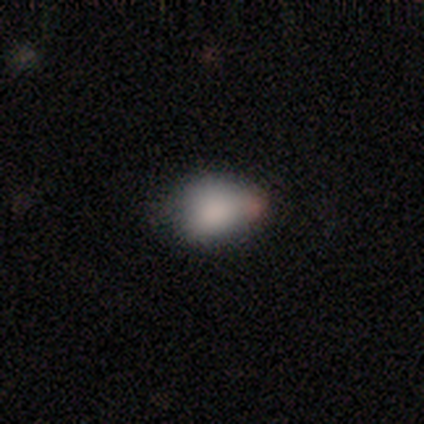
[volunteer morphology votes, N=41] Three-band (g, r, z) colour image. It shows a smooth galaxy with no disk features (73%) that is in between round and cigar-shaped (70%). Merging: none (47%).